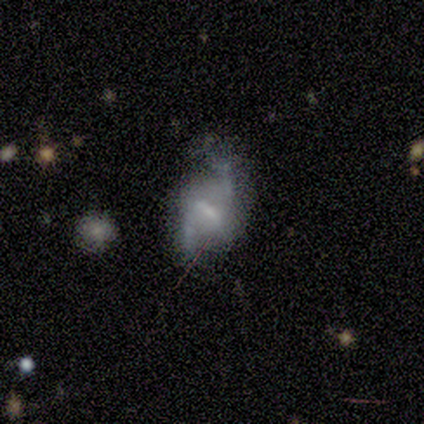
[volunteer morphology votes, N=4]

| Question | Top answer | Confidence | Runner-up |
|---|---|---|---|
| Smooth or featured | featured or disk | 75% | smooth (25%) |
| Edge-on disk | no | 100% | — |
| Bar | weak | 67% | strong (33%) |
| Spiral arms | yes | 67% | no (33%) |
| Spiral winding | medium | 50% | tied: loose (50%) |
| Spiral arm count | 2 | 100% | — |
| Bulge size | dominant | 33% | tied: small (33%), none (33%) |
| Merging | none | 50% | minor disturbance (25%) |